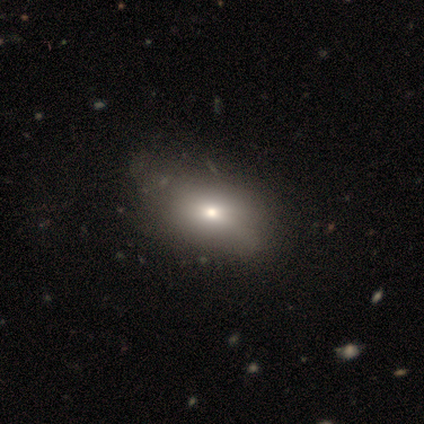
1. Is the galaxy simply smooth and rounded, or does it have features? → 79% smooth, 13% featured or disk, 8% star or artifact.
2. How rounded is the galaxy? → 94% in between, 6% cigar-shaped, 0% round.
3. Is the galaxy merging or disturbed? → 42% none, 19% minor disturbance, 6% major disturbance, 0% merger.